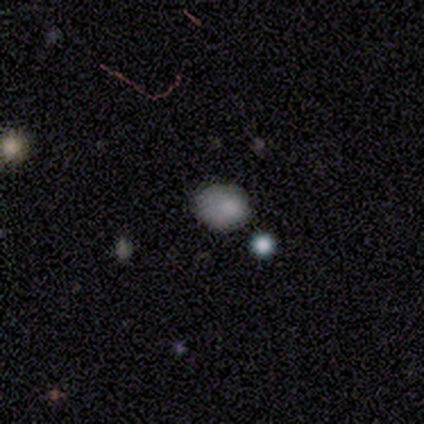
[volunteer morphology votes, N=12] Smooth or featured? smooth (92%)
How rounded? in between (64%)
Merging? none (55%)